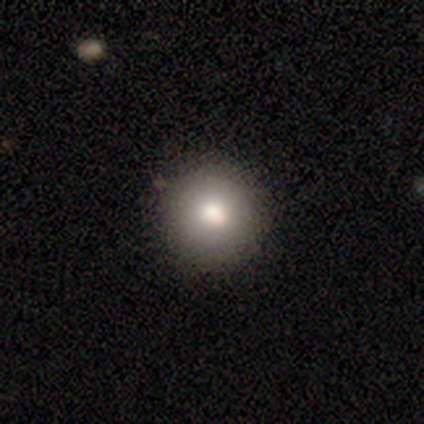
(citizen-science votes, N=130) Smooth or featured: smooth — 86% (featured or disk — 8%)
How rounded: round — 96% (in between — 4%)
Merging: none — 95% (minor disturbance — 4%)